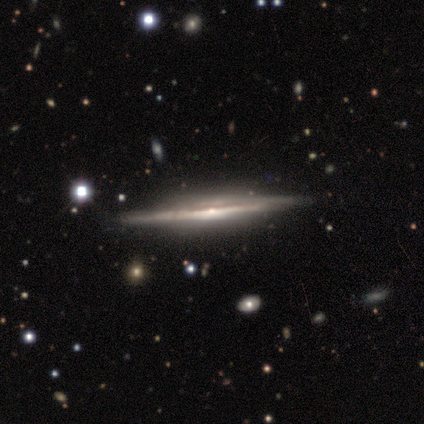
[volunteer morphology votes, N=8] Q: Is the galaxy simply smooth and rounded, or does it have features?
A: featured or disk — 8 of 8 (100%).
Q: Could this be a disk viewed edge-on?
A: yes — 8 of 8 (100%).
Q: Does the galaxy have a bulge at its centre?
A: rounded — 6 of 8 (75%).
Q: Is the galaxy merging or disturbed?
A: none — 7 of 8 (88%).